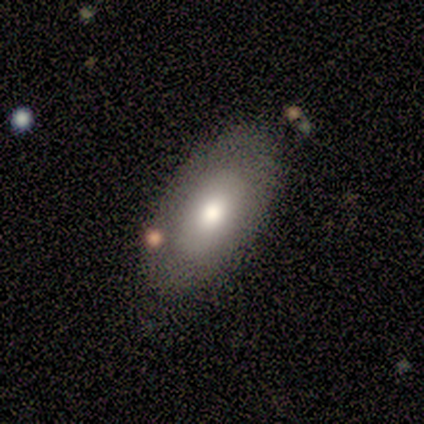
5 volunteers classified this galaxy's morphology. Volunteers were most divided on "merging": none: 60%, minor disturbance: 20%, merger: 20%, major disturbance: 0%. More confident: smooth or featured — smooth (80%); how rounded — in between (75%).